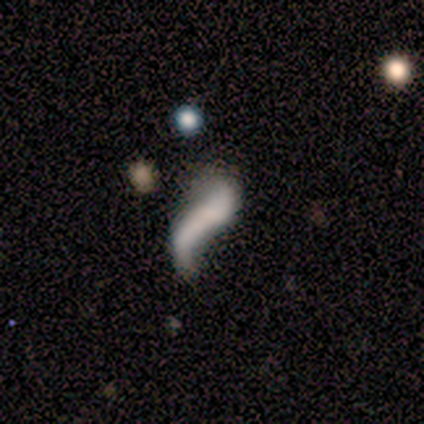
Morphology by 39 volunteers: smooth-or-featured: featured or disk: 54% | smooth: 38% | star or artifact: 8%
  disk-edge-on: no: 95% | yes: 5%
    bar: no: 60% | strong: 20% | weak: 20%
    has-spiral-arms: yes: 60% | no: 40%
      spiral-winding: loose: 92% | tight: 8% | medium: 0%
      spiral-arm-count: 2: 75% | 1: 17% | 3: 8% | 4: 0% | more than 4: 0% | can't tell: 0%
    bulge-size: none: 85% | large: 5% | moderate: 5% | small: 5% | dominant: 0%
  merging: major disturbance: 47% | none: 19% | minor disturbance: 17% | merger: 17%